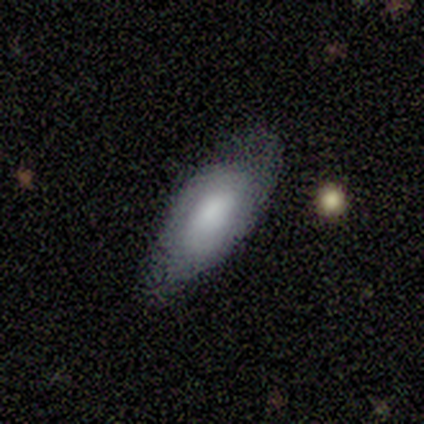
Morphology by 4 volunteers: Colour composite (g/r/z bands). It shows a smooth galaxy with no disk features (75%) that is in between round and cigar-shaped (100%). Merging: none (75%).